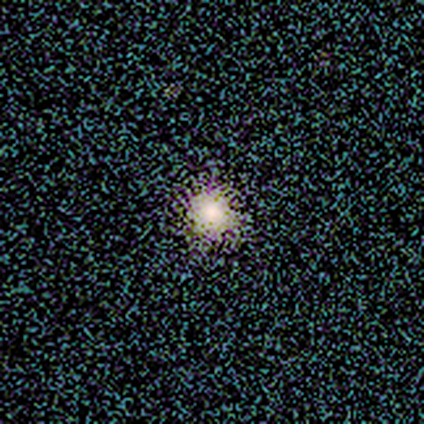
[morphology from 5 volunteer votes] This is likely a smooth galaxy (60%). How rounded: likely round (67%). Merging: likely none (67%).